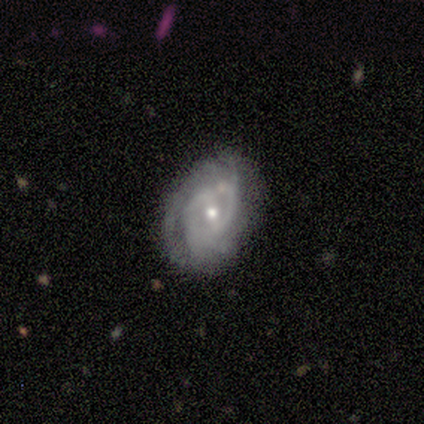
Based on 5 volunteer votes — Overall: featured or disk (100%). Edge-on disk: no (100%). Bar: weak (40%, tied with no). Spiral arms: yes (80%). Spiral arm count: can't tell (50%; 2 25%). Spiral winding: tight (75%). Bulge size: small (60%; moderate 40%). Merging: none (80%).